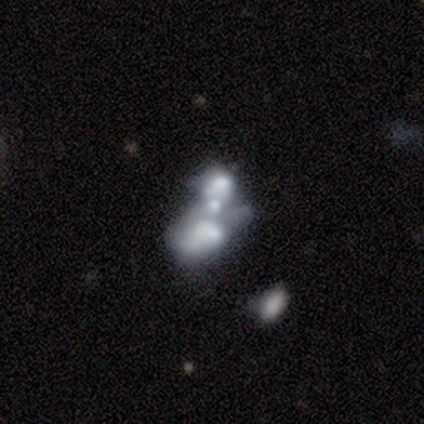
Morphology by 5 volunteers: smooth_or_featured: featured or disk (p=0.60) [alt: smooth p=0.20]
disk_edge_on: no (p=1.00)
bar: no (p=1.00)
has_spiral_arms: no (p=1.00)
bulge_size: moderate (p=0.67) [alt: none p=0.33]
merging: merger (p=0.75) [alt: major disturbance p=0.25]